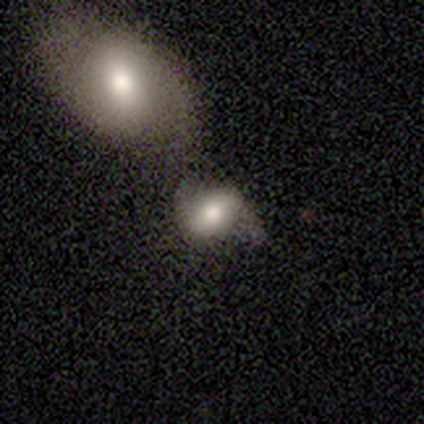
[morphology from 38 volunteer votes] This appears to be a smooth galaxy with no disk features (63%) that is in between round and cigar-shaped (67%). Merging: merger (36%).